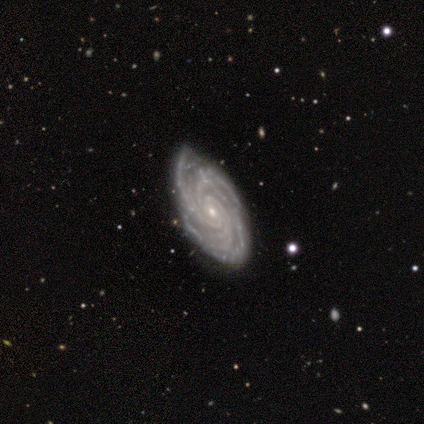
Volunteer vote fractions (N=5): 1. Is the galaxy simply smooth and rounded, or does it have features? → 100% featured or disk, 0% smooth, 0% star or artifact.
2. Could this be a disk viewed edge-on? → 100% no, 0% yes.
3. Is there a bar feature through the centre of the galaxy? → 100% no, 0% strong, 0% weak.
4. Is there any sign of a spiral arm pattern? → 100% yes, 0% no.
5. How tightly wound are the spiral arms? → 100% tight, 0% medium, 0% loose.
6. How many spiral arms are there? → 60% more than 4, 20% 3, 20% can't tell, 0% 1, 0% 2, 0% 4.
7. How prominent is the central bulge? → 100% small, 0% dominant, 0% large, 0% moderate, 0% none.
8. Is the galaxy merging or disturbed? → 80% none, 20% minor disturbance, 0% major disturbance, 0% merger.